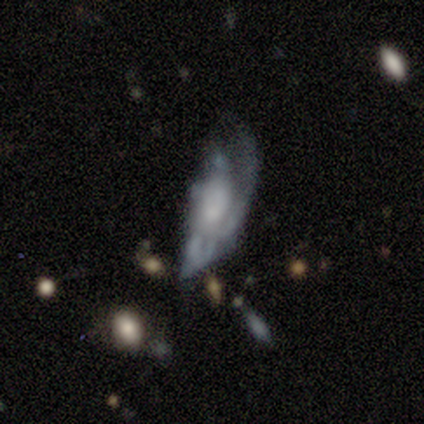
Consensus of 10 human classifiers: Overall: featured or disk (50%; smooth 30%). Edge-on disk: no (80%). Bar: no (100%). Spiral arms: yes (50%, tied with no). Spiral arm count: 1 (50%, tied with can't tell). Spiral winding: tight (100%). Bulge size: small (75%). Merging: major disturbance (75%).